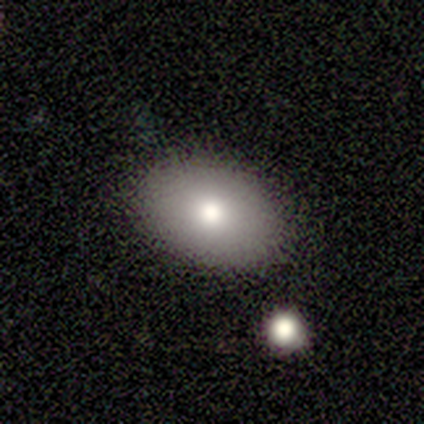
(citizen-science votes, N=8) Smooth or featured? 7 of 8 (88%) said smooth. How rounded? 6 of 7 (86%) said in between. Merging? 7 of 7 (100%) said none.